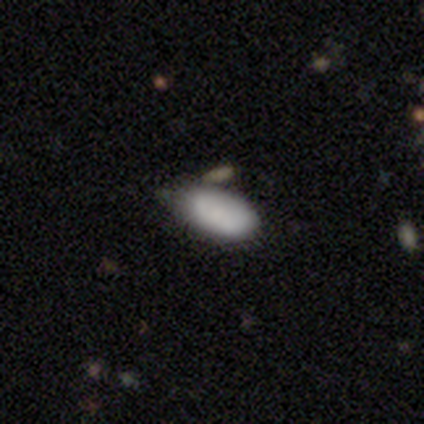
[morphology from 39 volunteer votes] smooth-or-featured: smooth: 85% | featured or disk: 8% | star or artifact: 8%
  how-rounded: in between: 100% | round: 0% | cigar-shaped: 0%
  merging: none: 53% | minor disturbance: 36% | merger: 8% | major disturbance: 3%